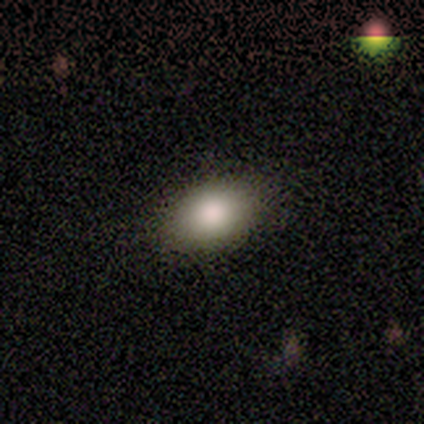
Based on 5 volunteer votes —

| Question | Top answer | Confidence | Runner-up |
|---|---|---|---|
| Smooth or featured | smooth | 100% | — |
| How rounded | in between | 100% | — |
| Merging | none | 100% | — |